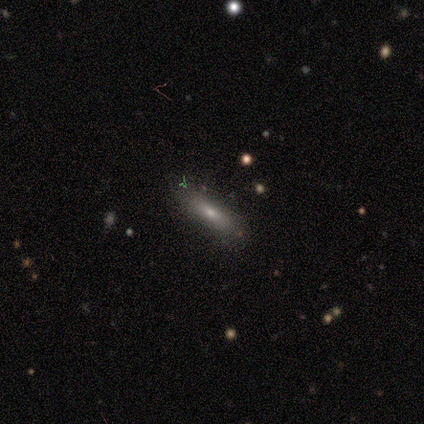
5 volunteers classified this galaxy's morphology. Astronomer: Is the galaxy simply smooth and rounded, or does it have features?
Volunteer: smooth — 80%.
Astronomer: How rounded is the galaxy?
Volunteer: in between — 50%, tied with cigar-shaped at 50%.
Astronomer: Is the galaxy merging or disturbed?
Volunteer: none — 100%.